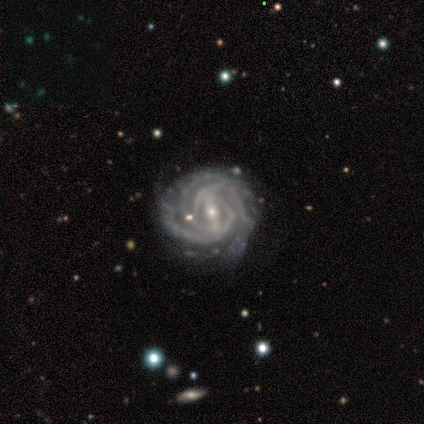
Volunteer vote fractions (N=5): Smooth or featured?
  - featured or disk: 100% *
  - smooth: 0%
  - star or artifact: 0%
Edge-on disk?
  - no: 100% *
  - yes: 0%
Bar?
  - strong: 60% *
  - weak: 20%
  - no: 20%
Spiral arms?
  - yes: 100% *
  - no: 0%
Spiral winding?
  - tight: 100% *
  - medium: 0%
  - loose: 0%
Spiral arm count?
  - 2: 40% *
  - 3: 20%
  - 4: 20%
  - can't tell: 20%
  - 1: 0%
  - more than 4: 0%
Bulge size?
  - small: 80% *
  - moderate: 20%
  - dominant: 0%
  - large: 0%
  - none: 0%
Merging?
  - none: 60% *
  - minor disturbance: 40%
  - major disturbance: 0%
  - merger: 0%